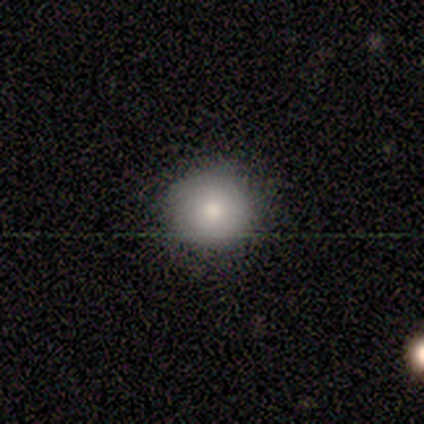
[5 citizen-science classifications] Smooth or featured? 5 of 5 (100%) said smooth. How rounded? 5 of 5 (100%) said round. Merging? 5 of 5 (100%) said none.